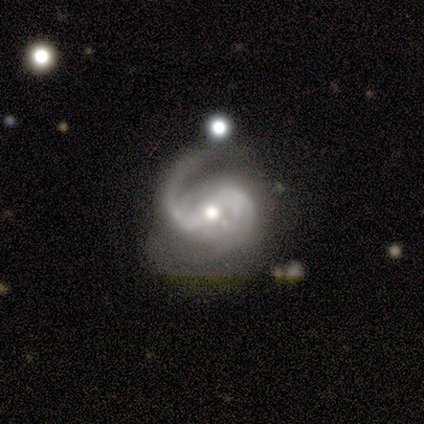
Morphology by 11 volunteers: Overall: featured or disk (100%). Edge-on disk: no (91%). Bar: weak (60%; strong 30%). Spiral arms: yes (90%). Spiral arm count: 2 (100%). Spiral winding: loose (44%; medium 33%). Bulge size: moderate (90%). Merging: none (55%; minor disturbance 18%).